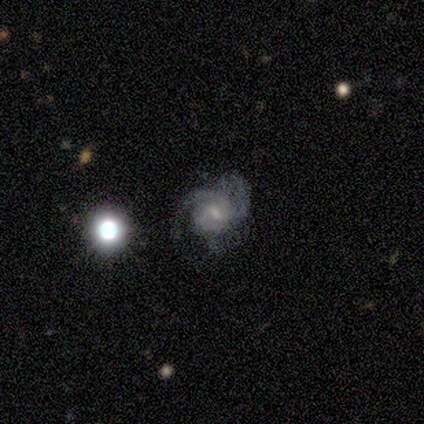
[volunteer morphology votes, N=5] A featured or disk galaxy (100%) with a weak bar (80%), 3 (40%, tied with can't tell) tight (60%) spiral arms (100%) and a small central bulge (80%).

Vote fractions:
- Smooth or featured? featured or disk: 100% / smooth: 0% / star or artifact: 0%
- Edge-on disk? no: 100% / yes: 0%
- Bar? weak: 80% / no: 20% / strong: 0%
- Spiral arms? yes: 100% / no: 0%
- Spiral winding? tight: 60% / medium: 40% / loose: 0%
- Spiral arm count? 3: 40% (tied) / can't tell: 40% (tied) / 2: 20% / 1: 0% / 4: 0% / more than 4: 0%
- Bulge size? small: 80% / moderate: 20% / dominant: 0% / large: 0% / none: 0%
- Merging? none: 40% / minor disturbance: 20% / major disturbance: 20% / merger: 20%